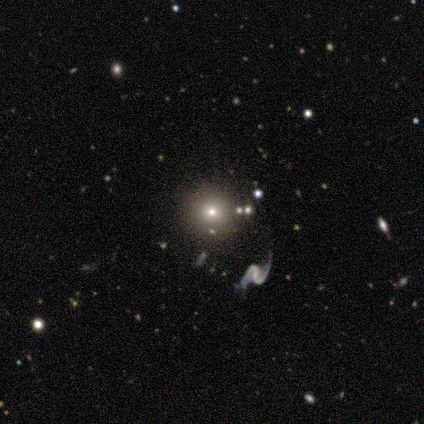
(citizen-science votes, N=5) This appears to be a smooth galaxy with no disk features (40%, tied with featured or disk) that is round (100%). Merging: none (100%).